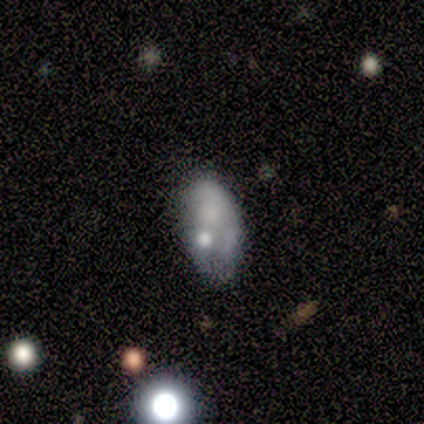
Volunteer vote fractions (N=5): Volunteers were most divided on "merging" (2-way tie): minor disturbance: 40%, major disturbance: 40%, none: 20%, merger: 0%. More confident: how rounded — in between (100%); smooth or featured — smooth (80%).